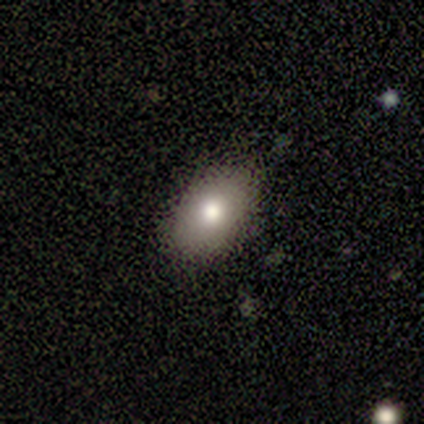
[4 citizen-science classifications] smooth-or-featured: featured or disk: 50% | smooth: 25% | star or artifact: 25%
  disk-edge-on: no: 100% | yes: 0%
    bar: no: 100% | strong: 0% | weak: 0%
    has-spiral-arms: no: 100% | yes: 0%
    bulge-size: moderate: 100% | dominant: 0% | large: 0% | small: 0% | none: 0%
  merging: none: 67% | major disturbance: 33% | minor disturbance: 0% | merger: 0%